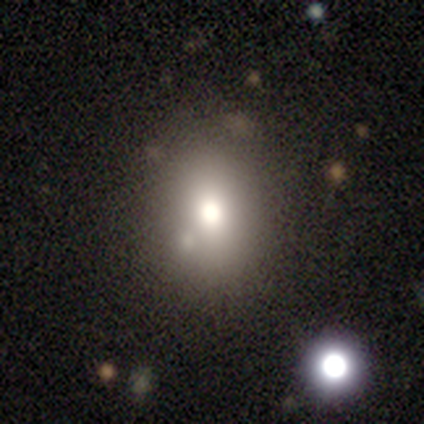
Volunteers were most divided on "how rounded": in between: 61%, round: 39%, cigar-shaped: 0%. More confident: smooth or featured — smooth (82%); merging — none (50%).